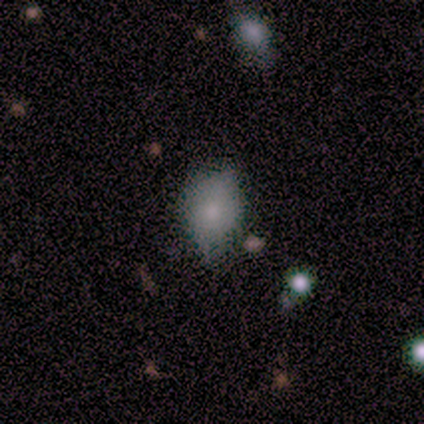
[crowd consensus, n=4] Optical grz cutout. It shows a smooth galaxy with no disk features (100%) that is in between round and cigar-shaped (100%). Merging: none (50%, tied with minor disturbance).